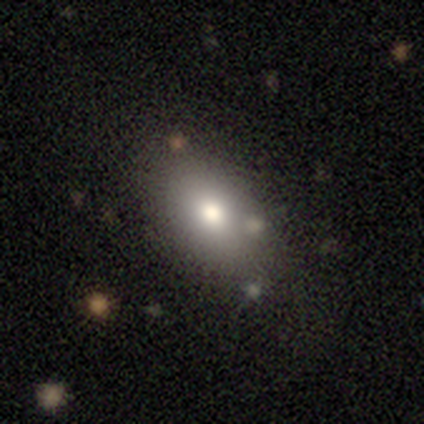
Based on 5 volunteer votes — Smooth or featured?
  - smooth: 80% *
  - featured or disk: 20%
  - star or artifact: 0%
How rounded?
  - in between: 75% *
  - round: 25%
  - cigar-shaped: 0%
Merging?
  - none: 100% *
  - minor disturbance: 0%
  - major disturbance: 0%
  - merger: 0%